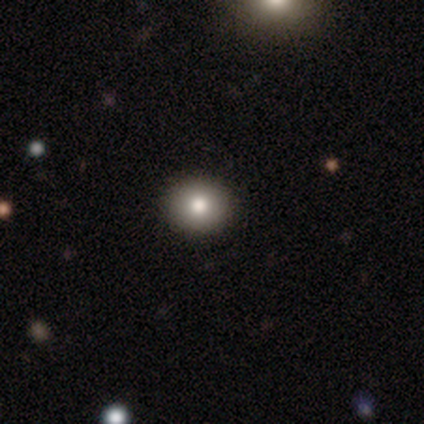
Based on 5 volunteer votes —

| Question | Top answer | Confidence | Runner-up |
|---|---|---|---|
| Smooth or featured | smooth | 80% | star or artifact (20%) |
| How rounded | round | 100% | — |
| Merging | none | 100% | — |